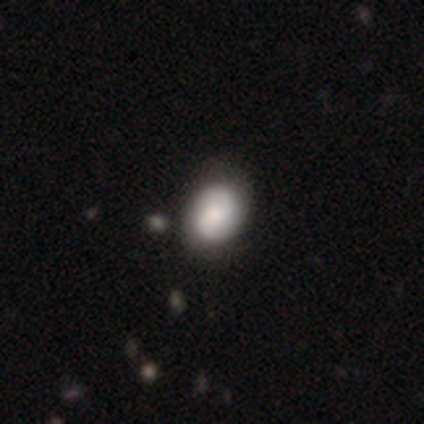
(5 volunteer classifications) Smooth or featured?
  - smooth: 80% *
  - featured or disk: 20%
  - star or artifact: 0%
How rounded?
  - in between: 100% *
  - round: 0%
  - cigar-shaped: 0%
Merging?
  - none: 80% *
  - minor disturbance: 20%
  - major disturbance: 0%
  - merger: 0%